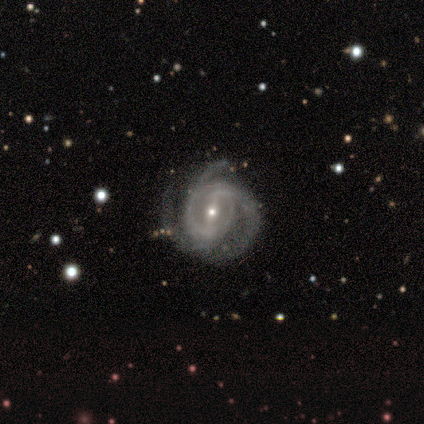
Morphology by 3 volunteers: Overall: featured or disk (100%). Edge-on disk: no (100%). Bar: strong (67%; no 33%). Spiral arms: yes (100%). Spiral arm count: 3 (100%). Spiral winding: tight (67%; medium 33%). Bulge size: small (67%; moderate 33%). Merging: none (100%).